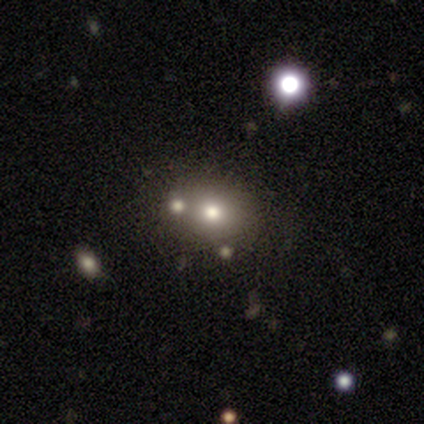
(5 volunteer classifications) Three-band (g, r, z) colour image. It shows a smooth galaxy with no disk features (60%) that is round (67%). Merging: none (60%).